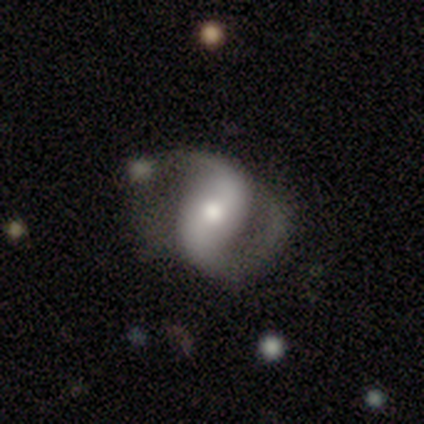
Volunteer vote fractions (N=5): Smooth or featured? featured or disk (100%)
Edge-on disk? no (100%)
Bar? strong (60%)
Spiral arms? yes (100%)
Spiral winding? medium (40%, tied with loose)
Spiral arm count? 2 (100%)
Bulge size? moderate (60%)
Merging? none (60%)